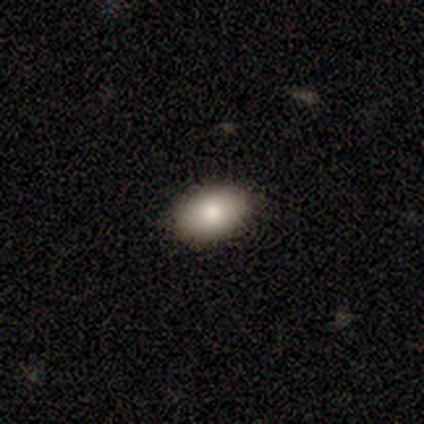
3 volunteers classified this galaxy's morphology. Consensus on every question: smooth or featured — smooth (100%); how rounded — in between (100%); merging — none (100%).